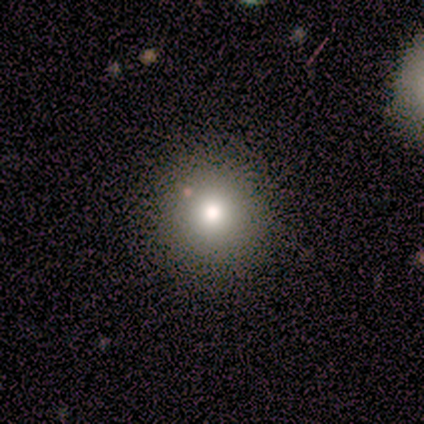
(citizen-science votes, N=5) Smooth or featured? smooth (40%, tied with featured or disk)
How rounded? round (100%)
Merging? none (100%)